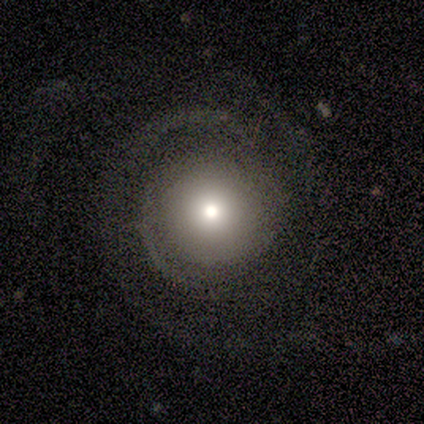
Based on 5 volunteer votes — Q: Smooth or featured?
A: featured or disk (80%); runner-up: smooth (20%)
Q: Edge-on disk?
A: no (75%); runner-up: yes (25%)
Q: Bar?
A: no (100%)
Q: Spiral arms?
A: yes (67%); runner-up: no (33%)
Q: Spiral winding?
A: medium (50%); tied with: loose (50%)
Q: Spiral arm count?
A: 2 (100%)
Q: Bulge size?
A: moderate (67%); runner-up: dominant (33%)
Q: Merging?
A: none (80%); runner-up: minor disturbance (20%)